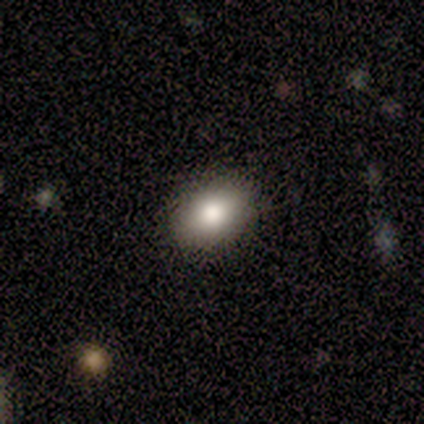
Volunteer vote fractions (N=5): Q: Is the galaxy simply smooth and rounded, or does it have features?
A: smooth — 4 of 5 (80%).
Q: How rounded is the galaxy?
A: in between — 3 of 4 (75%).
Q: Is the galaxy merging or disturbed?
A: none — 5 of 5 (100%).